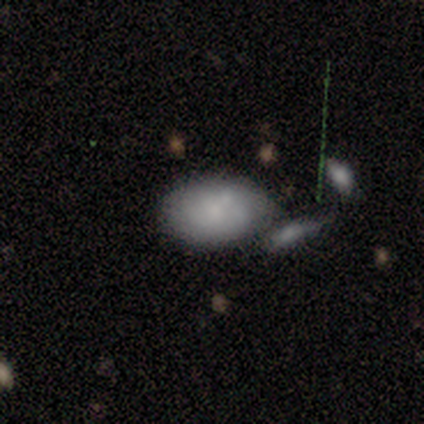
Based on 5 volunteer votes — Smooth or featured? 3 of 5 (60%) said smooth. How rounded? 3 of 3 (100%) said in between. Merging? 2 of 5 (40%, tied with merger) said none.